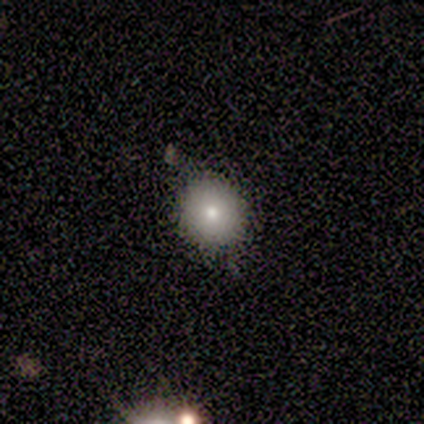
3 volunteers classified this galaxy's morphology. A smooth galaxy with no disk features (100%) that is in between round and cigar-shaped (67%).

Vote fractions:
- Smooth or featured? smooth: 100% / featured or disk: 0% / star or artifact: 0%
- How rounded? in between: 67% / round: 33% / cigar-shaped: 0%
- Merging? none: 67% / minor disturbance: 33% / major disturbance: 0% / merger: 0%